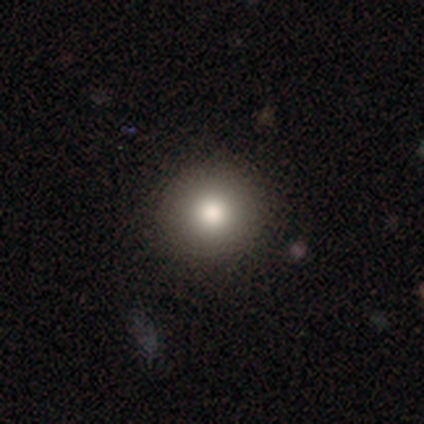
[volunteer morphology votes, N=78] Volunteers were most divided on "merging": none: 45%, minor disturbance: 3%, major disturbance: 3%, merger: 1%. More confident: how rounded — round (95%); smooth or featured — smooth (85%).